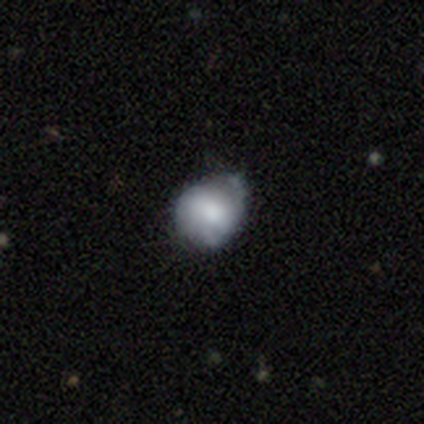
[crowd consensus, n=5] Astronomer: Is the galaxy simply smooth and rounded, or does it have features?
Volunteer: featured or disk — 60% (runner-up: smooth, 40%).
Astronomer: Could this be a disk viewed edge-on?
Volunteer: no — 100%.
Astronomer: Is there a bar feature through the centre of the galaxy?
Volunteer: no — 67%.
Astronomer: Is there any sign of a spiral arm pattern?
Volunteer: no — 67%.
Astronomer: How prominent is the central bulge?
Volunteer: large — 33%, tied with moderate and none at 33%.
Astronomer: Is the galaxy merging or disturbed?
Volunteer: none — 100%.